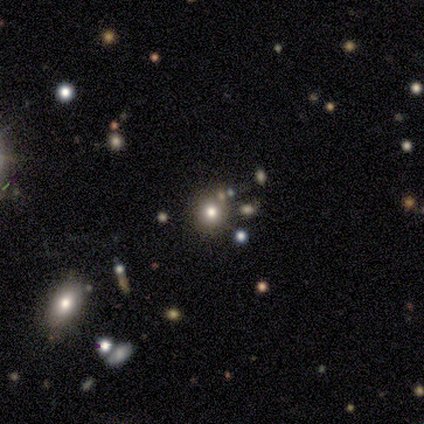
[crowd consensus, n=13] Overall: smooth (62%; star or artifact 31%). How rounded: round (88%). Merging: none (100%).